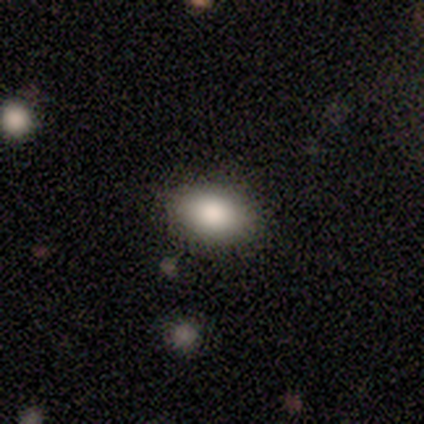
Overall: smooth (100%). How rounded: in between (100%). Merging: none (80%).